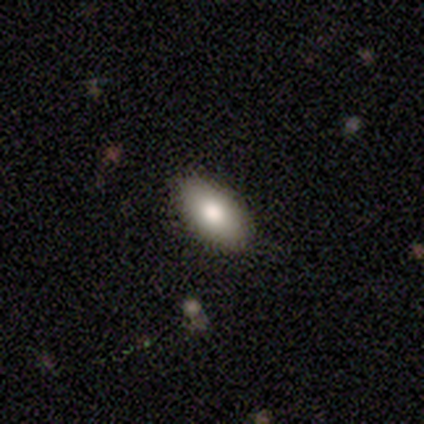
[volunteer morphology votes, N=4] Smooth or featured?
  - smooth: 75% *
  - star or artifact: 25%
  - featured or disk: 0%
How rounded?
  - in between: 100% *
  - round: 0%
  - cigar-shaped: 0%
Merging?
  - none: 100% *
  - minor disturbance: 0%
  - major disturbance: 0%
  - merger: 0%